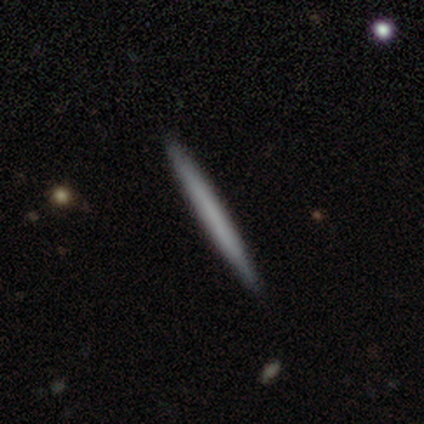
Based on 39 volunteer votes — Volunteers were most divided on "smooth or featured": featured or disk: 51%, smooth: 46%, star or artifact: 3%. More confident: edge-on bulge — none (100%); merging — none (97%); edge-on disk — yes (95%).